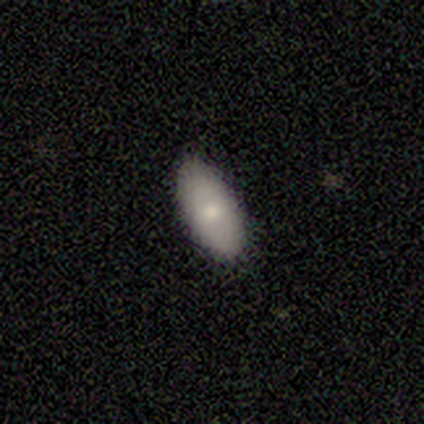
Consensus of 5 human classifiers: A smooth galaxy with no disk features (80%) that is in between round and cigar-shaped (100%).

Vote fractions:
- Smooth or featured? smooth: 80% / featured or disk: 20% / star or artifact: 0%
- How rounded? in between: 100% / round: 0% / cigar-shaped: 0%
- Merging? none: 100% / minor disturbance: 0% / major disturbance: 0% / merger: 0%